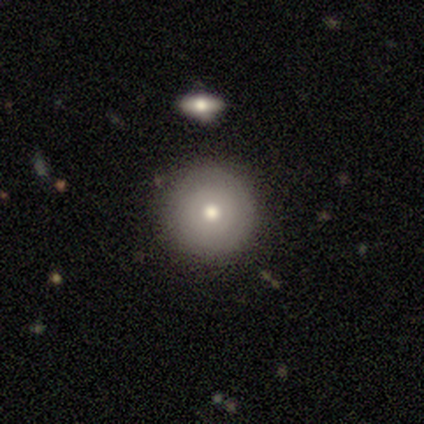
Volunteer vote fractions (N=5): Smooth or featured? featured or disk (80%)
Edge-on disk? no (100%)
Bar? no (100%)
Spiral arms? no (75%)
Bulge size? moderate (75%)
Merging? none (100%)